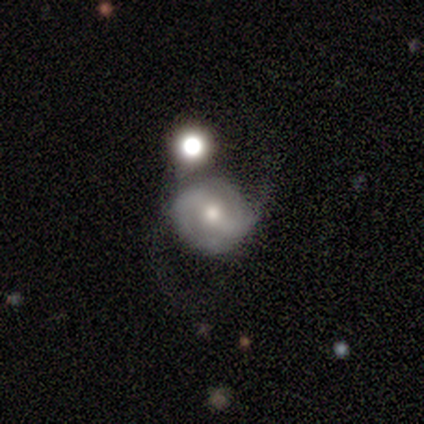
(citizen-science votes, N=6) A featured or disk galaxy (83%) with a strong bar (40%, tied with weak), 2 (100%) loose (75%) spiral arms (80%) and a moderate central bulge (80%).

Vote fractions:
- Smooth or featured? featured or disk: 83% / smooth: 17% / star or artifact: 0%
- Edge-on disk? no: 100% / yes: 0%
- Bar? strong: 40% (tied) / weak: 40% (tied) / no: 20%
- Spiral arms? yes: 80% / no: 20%
- Spiral winding? loose: 75% / medium: 25% / tight: 0%
- Spiral arm count? 2: 100% / 1: 0% / 3: 0% / 4: 0% / more than 4: 0% / can't tell: 0%
- Bulge size? moderate: 80% / small: 20% / dominant: 0% / large: 0% / none: 0%
- Merging? none: 83% / minor disturbance: 17% / major disturbance: 0% / merger: 0%